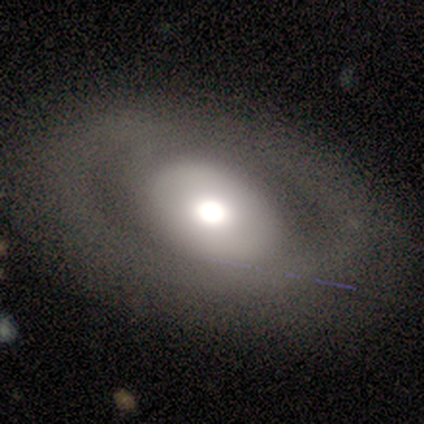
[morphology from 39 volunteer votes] Overall: featured or disk (56%; smooth 41%). Edge-on disk: no (91%). Bar: no (80%). Spiral arms: no (75%). Bulge size: large (50%; moderate 40%). Merging: none (82%).